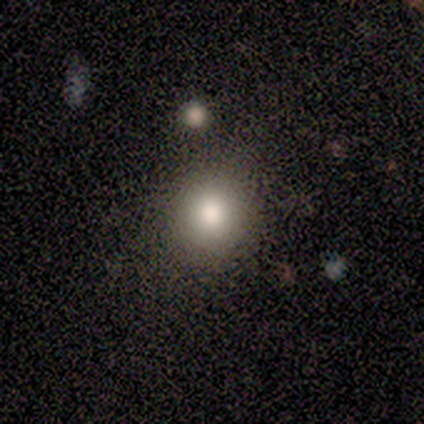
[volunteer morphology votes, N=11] This appears to be a smooth galaxy with no disk features (82%) that is round (78%). Merging: none (70%).